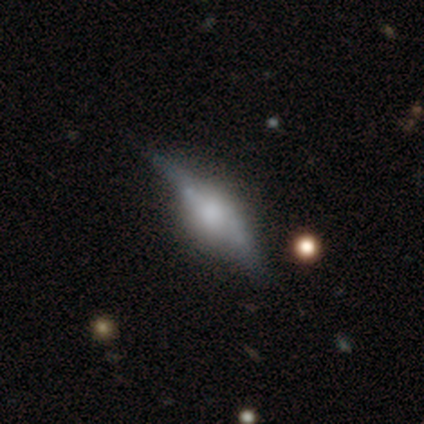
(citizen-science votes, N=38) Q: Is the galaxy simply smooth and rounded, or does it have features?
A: featured or disk — 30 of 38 (79%).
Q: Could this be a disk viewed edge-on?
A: yes — 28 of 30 (93%).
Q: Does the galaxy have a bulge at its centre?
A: rounded — 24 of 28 (86%).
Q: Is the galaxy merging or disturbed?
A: none — 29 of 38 (76%).